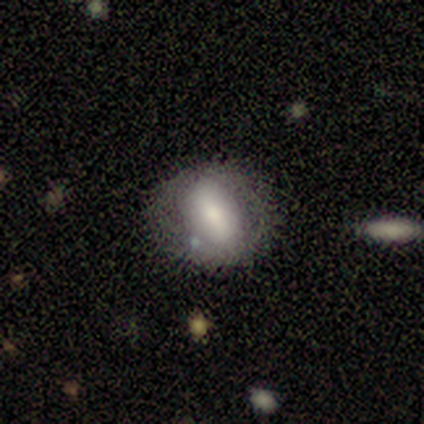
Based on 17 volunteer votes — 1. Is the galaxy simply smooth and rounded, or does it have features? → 53% smooth, 41% featured or disk, 6% star or artifact.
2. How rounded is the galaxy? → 89% in between, 11% round, 0% cigar-shaped.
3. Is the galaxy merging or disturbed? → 62% none, 19% minor disturbance, 12% merger, 6% major disturbance.